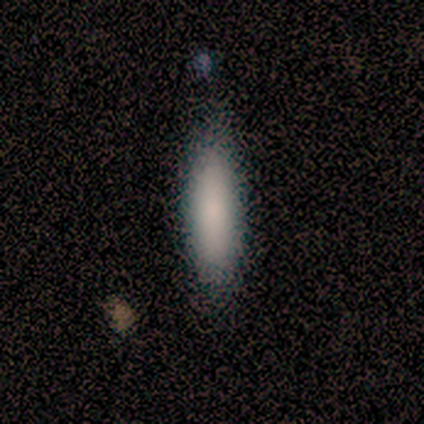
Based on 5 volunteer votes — Smooth or featured? smooth (80%)
How rounded? cigar-shaped (75%)
Merging? none (60%)